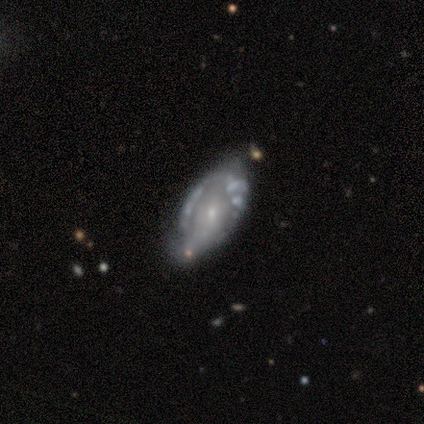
A featured or disk galaxy (80%) with no bar (100%), no spiral arms (75%) and a small central bulge (100%).

Vote fractions:
- Smooth or featured? featured or disk: 80% / smooth: 20% / star or artifact: 0%
- Edge-on disk? no: 100% / yes: 0%
- Bar? no: 100% / strong: 0% / weak: 0%
- Spiral arms? no: 75% / yes: 25%
- Bulge size? small: 100% / dominant: 0% / large: 0% / moderate: 0% / none: 0%
- Merging? minor disturbance: 80% / merger: 20% / none: 0% / major disturbance: 0%